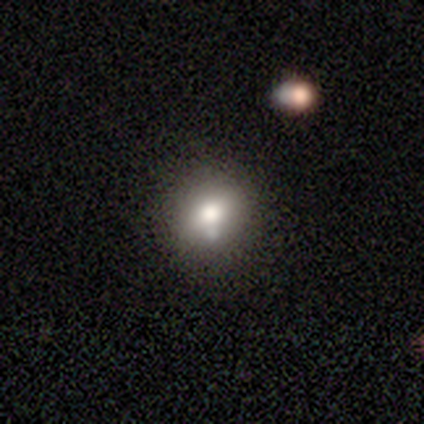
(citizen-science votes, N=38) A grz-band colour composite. It shows a smooth galaxy with no disk features (76%) that is round (79%). Merging: none (79%).